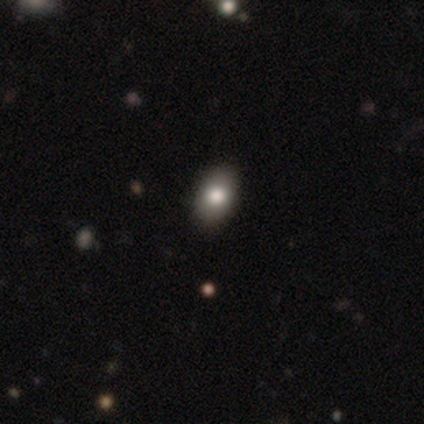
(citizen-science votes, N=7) This is likely a smooth galaxy (71%). How rounded: clearly in between (80%). Merging: clearly none (100%).